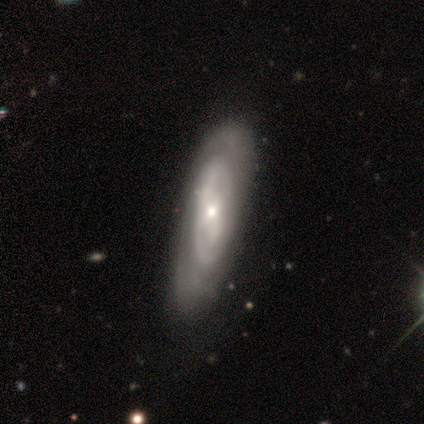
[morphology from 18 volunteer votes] Q: Smooth or featured?
A: featured or disk (83%); runner-up: smooth (17%)
Q: Edge-on disk?
A: no (80%); runner-up: yes (20%)
Q: Bar?
A: no (92%); runner-up: weak (8%)
Q: Spiral arms?
A: yes (50%); tied with: no (50%)
Q: Spiral winding?
A: tight (67%); runner-up: medium (17%)
Q: Spiral arm count?
A: can't tell (67%); runner-up: 1 (17%)
Q: Bulge size?
A: small (75%); runner-up: moderate (25%)
Q: Merging?
A: none (67%); runner-up: minor disturbance (33%)